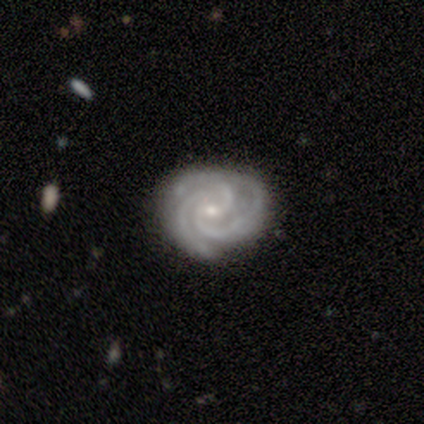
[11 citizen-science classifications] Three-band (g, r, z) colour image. It shows a featured or disk galaxy (91%) with a weak bar (40%), 3 (70%) tight (80%) spiral arms (100%) and a small central bulge (90%). Merging: none (60%).